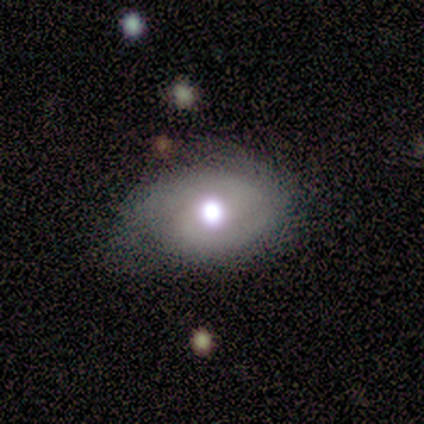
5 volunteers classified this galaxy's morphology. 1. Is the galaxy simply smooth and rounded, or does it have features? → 60% featured or disk, 40% smooth, 0% star or artifact.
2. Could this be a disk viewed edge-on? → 67% no, 33% yes.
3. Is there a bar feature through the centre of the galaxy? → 100% no, 0% strong, 0% weak.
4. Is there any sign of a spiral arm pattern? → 50% yes (tied), 50% no (tied).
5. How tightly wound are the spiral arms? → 100% medium, 0% tight, 0% loose.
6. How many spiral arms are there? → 100% can't tell, 0% 1, 0% 2, 0% 3, 0% 4, 0% more than 4.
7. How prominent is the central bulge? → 100% moderate, 0% dominant, 0% large, 0% small, 0% none.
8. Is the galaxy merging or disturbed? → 60% none, 20% minor disturbance, 20% major disturbance, 0% merger.